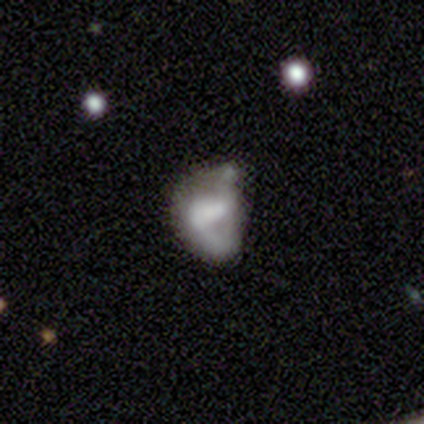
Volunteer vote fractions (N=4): Volunteers were most divided on "smooth or featured" (2-way tie): smooth: 50%, featured or disk: 50%, star or artifact: 0%; "how rounded" (2-way tie): round: 50%, in between: 50%, cigar-shaped: 0%. More confident: merging — minor disturbance (75%).